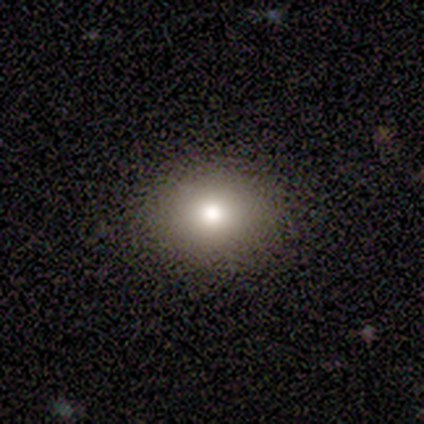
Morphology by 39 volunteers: A smooth galaxy with no disk features (62%) that is round (58%).

Vote fractions:
- Smooth or featured? smooth: 62% / featured or disk: 23% / star or artifact: 15%
- How rounded? round: 58% / in between: 42% / cigar-shaped: 0%
- Merging? none: 88% / minor disturbance: 6% / major disturbance: 6% / merger: 0%